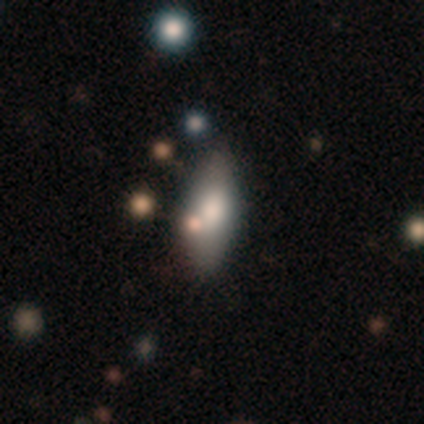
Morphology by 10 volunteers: Volunteers were most divided on "merging": none: 80%, minor disturbance: 20%, major disturbance: 0%, merger: 0%. More confident: smooth or featured — smooth (90%); how rounded — in between (89%).